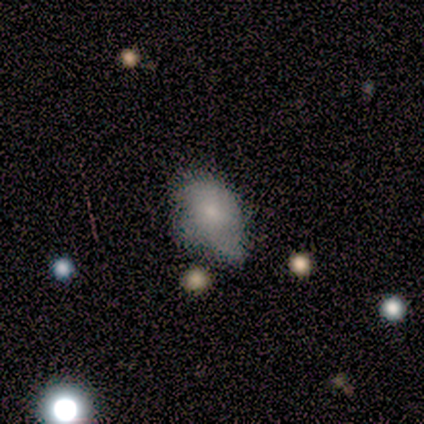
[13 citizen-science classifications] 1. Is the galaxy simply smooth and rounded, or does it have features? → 62% smooth, 23% featured or disk, 15% star or artifact.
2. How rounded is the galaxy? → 75% in between, 25% round, 0% cigar-shaped.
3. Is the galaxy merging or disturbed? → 45% major disturbance, 36% minor disturbance, 18% none, 0% merger.